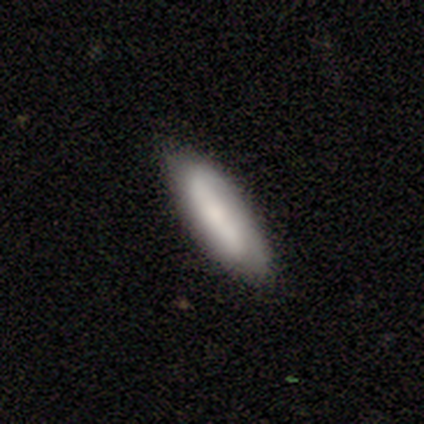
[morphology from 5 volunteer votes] smooth-or-featured: smooth: 80% | featured or disk: 20% | star or artifact: 0%
  how-rounded: in between: 50% (tied) | cigar-shaped: 50% (tied) | round: 0%
  merging: none: 80% | minor disturbance: 20% | major disturbance: 0% | merger: 0%